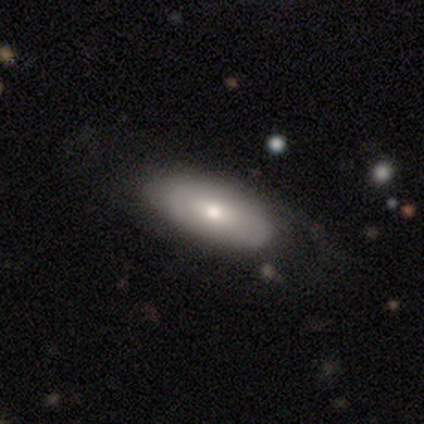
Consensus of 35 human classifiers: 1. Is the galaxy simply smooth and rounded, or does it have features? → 74% smooth, 26% featured or disk, 0% star or artifact.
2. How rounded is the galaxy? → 81% in between, 15% cigar-shaped, 4% round.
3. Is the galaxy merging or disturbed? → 66% none, 29% minor disturbance, 6% major disturbance, 0% merger.